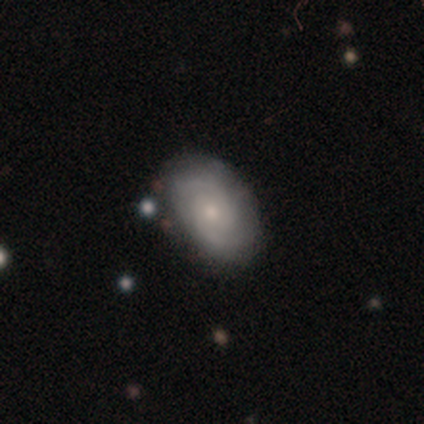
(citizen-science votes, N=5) A featured or disk galaxy (80%) with no bar (75%), 2 (50%) tight (75%) spiral arms (100%) and a moderate central bulge (75%).

Vote fractions:
- Smooth or featured? featured or disk: 80% / smooth: 20% / star or artifact: 0%
- Edge-on disk? no: 100% / yes: 0%
- Bar? no: 75% / weak: 25% / strong: 0%
- Spiral arms? yes: 100% / no: 0%
- Spiral winding? tight: 75% / loose: 25% / medium: 0%
- Spiral arm count? 2: 50% / 1: 25% / can't tell: 25% / 3: 0% / 4: 0% / more than 4: 0%
- Bulge size? moderate: 75% / small: 25% / dominant: 0% / large: 0% / none: 0%
- Merging? none: 60% / minor disturbance: 20% / major disturbance: 20% / merger: 0%